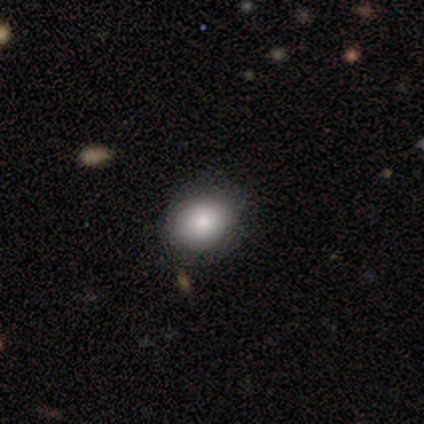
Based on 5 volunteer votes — smooth 100%, featured or disk 0%, star or artifact 0%. Down the decision tree: how rounded — in between (60%); merging — none (100%).